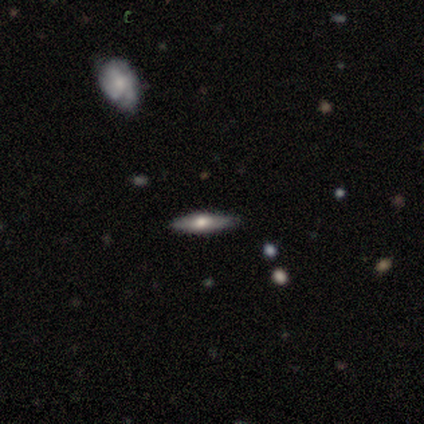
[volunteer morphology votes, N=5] Smooth or featured? featured or disk (60%)
Edge-on disk? yes (100%)
Edge-on bulge? rounded (100%)
Merging? none (100%)